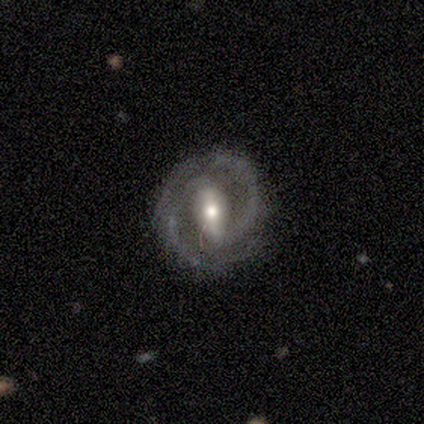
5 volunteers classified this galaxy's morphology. Q: Smooth or featured?
A: featured or disk (100%)
Q: Edge-on disk?
A: no (100%)
Q: Bar?
A: weak (80%); runner-up: strong (20%)
Q: Spiral arms?
A: yes (100%)
Q: Spiral winding?
A: tight (60%); runner-up: medium (40%)
Q: Spiral arm count?
A: 2 (100%)
Q: Bulge size?
A: moderate (100%)
Q: Merging?
A: none (80%); runner-up: minor disturbance (20%)